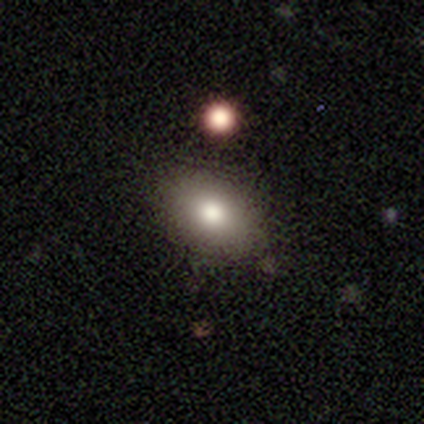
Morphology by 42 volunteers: smooth-or-featured: smooth: 90% | featured or disk: 7% | star or artifact: 2%
  how-rounded: in between: 87% | round: 11% | cigar-shaped: 3%
  merging: none: 85% | minor disturbance: 15% | major disturbance: 0% | merger: 0%